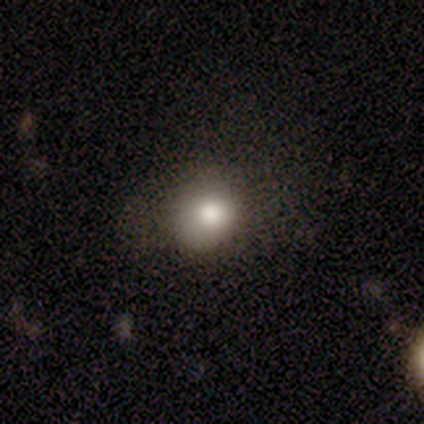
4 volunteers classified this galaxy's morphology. Smooth or featured?
  - smooth: 75% *
  - featured or disk: 25%
  - star or artifact: 0%
How rounded?
  - round: 67% *
  - in between: 33%
  - cigar-shaped: 0%
Merging?
  - none: 75% *
  - minor disturbance: 25%
  - major disturbance: 0%
  - merger: 0%